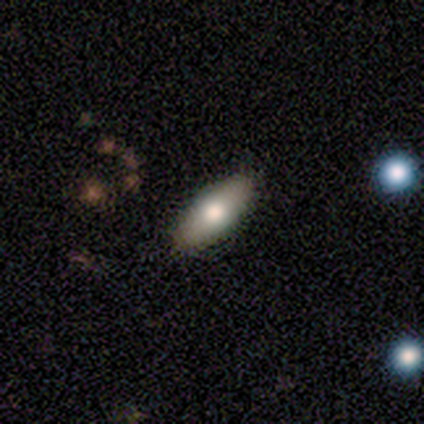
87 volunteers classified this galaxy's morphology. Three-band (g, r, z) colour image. It shows a smooth galaxy with no disk features (76%) that is in between round and cigar-shaped (86%). Merging: none (87%).